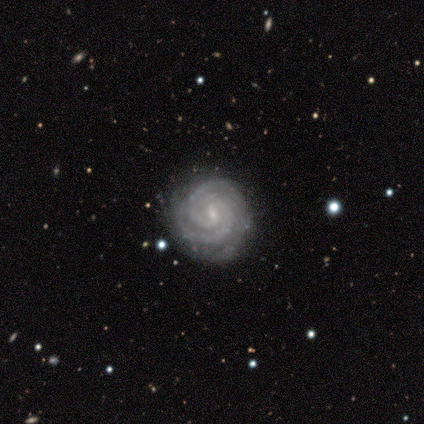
Overall: featured or disk (80%). Edge-on disk: no (100%). Bar: weak (75%). Spiral arms: yes (100%). Spiral arm count: 2 (75%). Spiral winding: tight (75%). Bulge size: small (75%). Merging: none (100%).